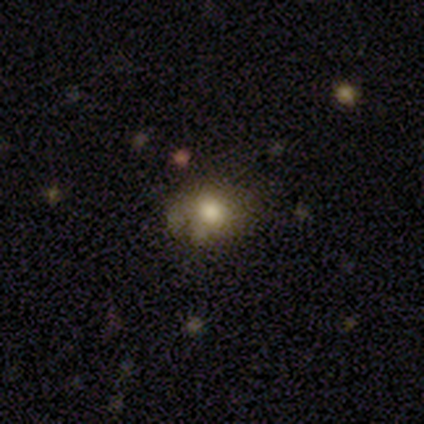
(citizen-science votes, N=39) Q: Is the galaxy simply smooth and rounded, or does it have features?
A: smooth — 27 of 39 (69%).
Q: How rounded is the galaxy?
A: round — 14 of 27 (52%).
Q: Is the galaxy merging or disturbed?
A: none — 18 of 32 (56%).